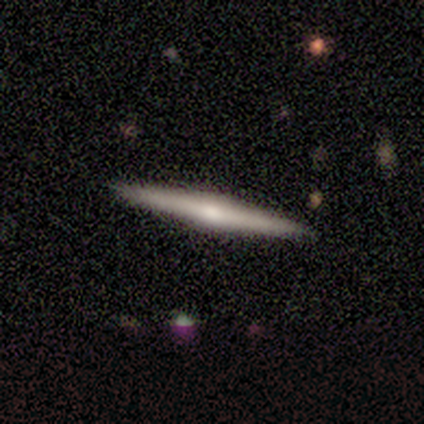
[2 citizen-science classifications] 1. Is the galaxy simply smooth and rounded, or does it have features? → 100% featured or disk, 0% smooth, 0% star or artifact.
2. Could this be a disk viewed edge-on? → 100% yes, 0% no.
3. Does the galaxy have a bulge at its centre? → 100% rounded, 0% boxy, 0% none.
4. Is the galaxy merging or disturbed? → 50% none (tied), 50% merger (tied), 0% minor disturbance, 0% major disturbance.